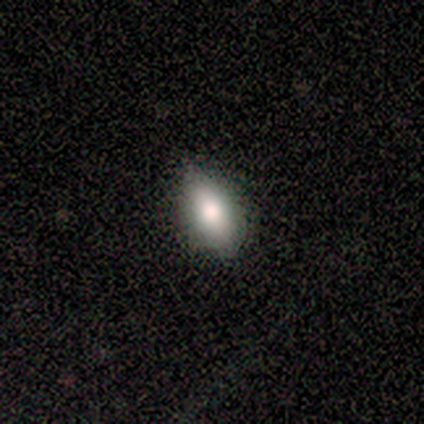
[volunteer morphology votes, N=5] Smooth or featured?
  - smooth: 80% *
  - star or artifact: 20%
  - featured or disk: 0%
How rounded?
  - in between: 75% *
  - round: 25%
  - cigar-shaped: 0%
Merging?
  - none: 75% *
  - minor disturbance: 25%
  - major disturbance: 0%
  - merger: 0%